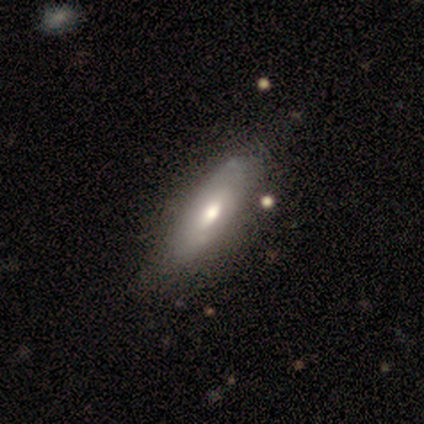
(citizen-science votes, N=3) Volunteers were most divided on "edge-on disk" (2-way tie): yes: 50%, no: 50%. More confident: edge-on bulge — rounded (100%); smooth or featured — featured or disk (67%); merging — minor disturbance (67%).